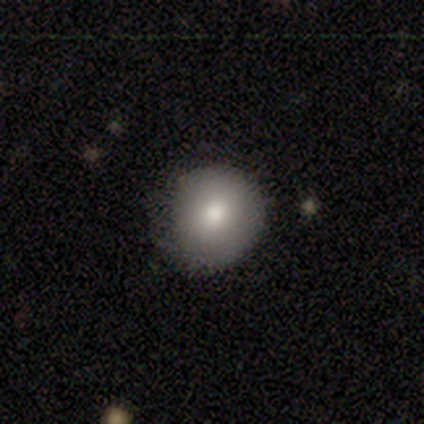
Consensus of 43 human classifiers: Q: Smooth or featured?
A: smooth (91%); runner-up: featured or disk (5%)
Q: How rounded?
A: round (90%); runner-up: in between (8%)
Q: Merging?
A: none (76%); runner-up: minor disturbance (22%)